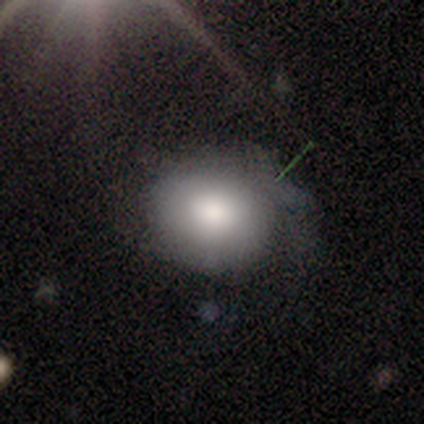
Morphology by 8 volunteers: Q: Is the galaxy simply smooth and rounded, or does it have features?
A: smooth — 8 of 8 (100%).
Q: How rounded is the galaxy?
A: round — 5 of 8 (62%).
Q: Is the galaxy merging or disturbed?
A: none — 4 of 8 (50%).